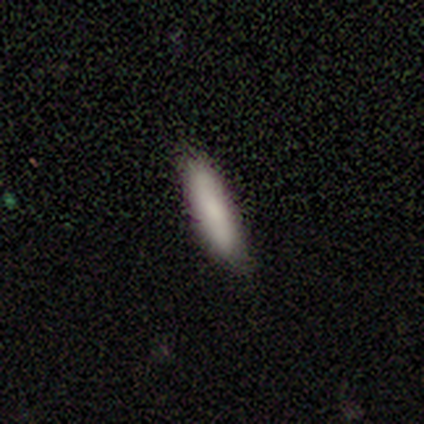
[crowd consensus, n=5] smooth 80%, featured or disk 20%, star or artifact 0%. Down the decision tree: how rounded — cigar-shaped (75%); merging — none (60%).